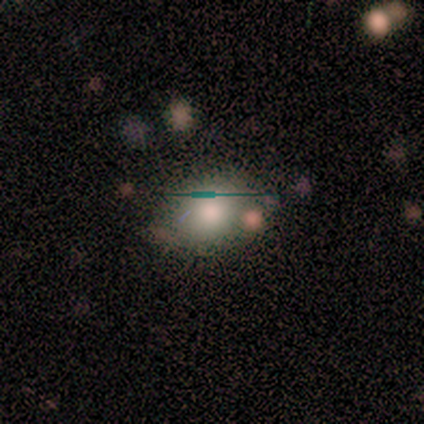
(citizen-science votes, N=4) smooth 75%, star or artifact 25%, featured or disk 0%. Down the decision tree: how rounded — round (100%); merging — minor disturbance (67%).